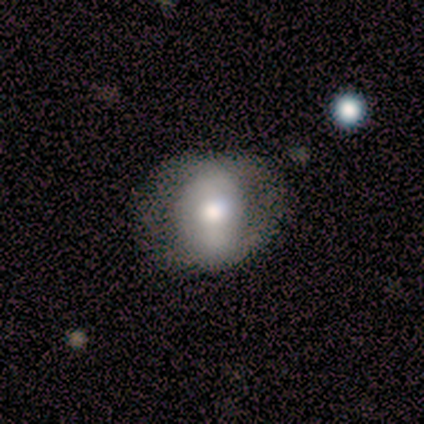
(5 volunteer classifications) smooth 60%, featured or disk 40%, star or artifact 0%. Down the decision tree: how rounded — round (67%); merging — none (60%).